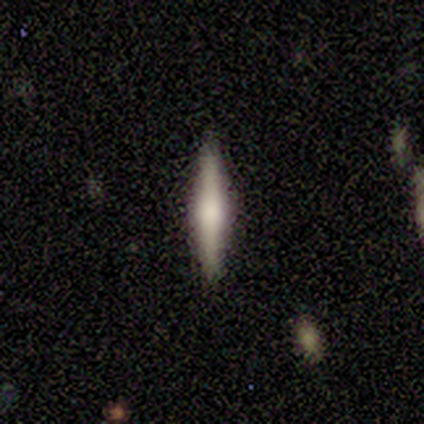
A featured or disk galaxy (56%) viewed edge-on (91%) with a rounded central bulge (70%).

Vote fractions:
- Smooth or featured? featured or disk: 56% / smooth: 38% / star or artifact: 5%
- Edge-on disk? yes: 91% / no: 9%
- Edge-on bulge? rounded: 70% / boxy: 20% / none: 10%
- Merging? none: 95% / minor disturbance: 5% / major disturbance: 0% / merger: 0%